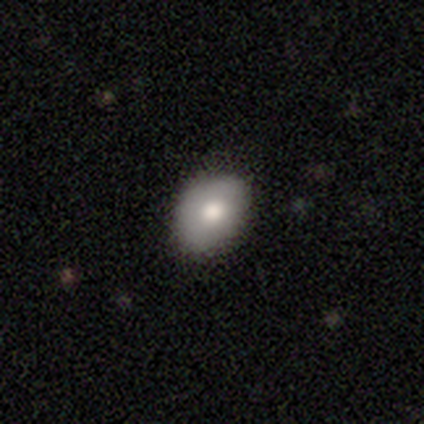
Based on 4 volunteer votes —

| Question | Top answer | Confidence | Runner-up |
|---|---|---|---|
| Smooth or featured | smooth | 75% | featured or disk (25%) |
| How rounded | in between | 67% | round (33%) |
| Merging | none | 100% | — |